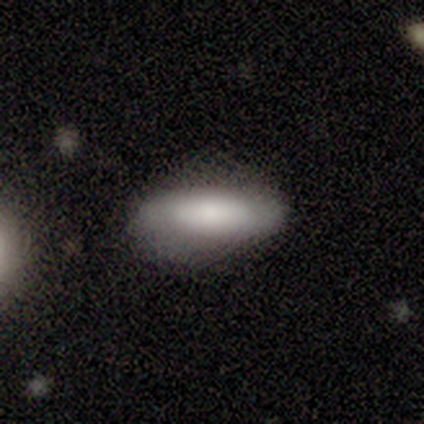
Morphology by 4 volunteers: A smooth galaxy with no disk features (100%) that is in between round and cigar-shaped (75%).

Vote fractions:
- Smooth or featured? smooth: 100% / featured or disk: 0% / star or artifact: 0%
- How rounded? in between: 75% / cigar-shaped: 25% / round: 0%
- Merging? none: 75% / major disturbance: 25% / minor disturbance: 0% / merger: 0%